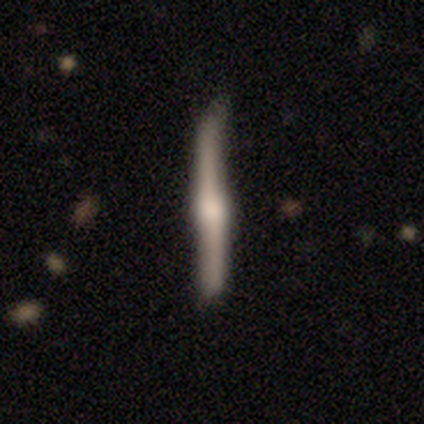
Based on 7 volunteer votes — Smooth or featured? 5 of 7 (71%) said featured or disk. Edge-on disk? 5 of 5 (100%) said yes. Edge-on bulge? 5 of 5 (100%) said rounded. Merging? 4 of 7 (57%) said none.